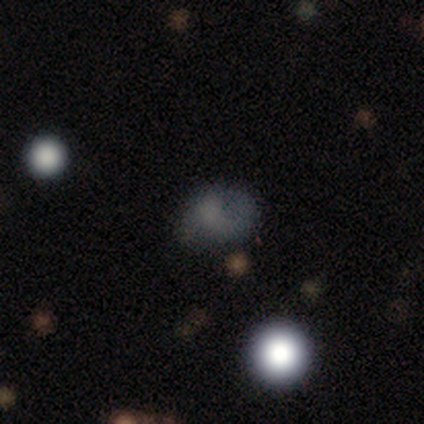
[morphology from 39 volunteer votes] A smooth galaxy with no disk features (64%) that is in between round and cigar-shaped (56%).

Vote fractions:
- Smooth or featured? smooth: 64% / star or artifact: 21% / featured or disk: 15%
- How rounded? in between: 56% / round: 44% / cigar-shaped: 0%
- Merging? none: 52% / minor disturbance: 19% / major disturbance: 19% / merger: 10%